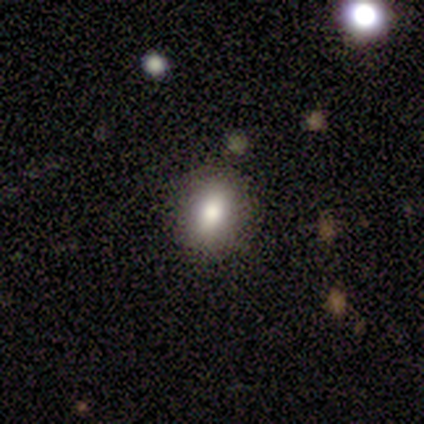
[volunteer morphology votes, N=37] This appears to be a smooth galaxy with no disk features (81%) that is in between round and cigar-shaped (50%). Merging: none (94%).